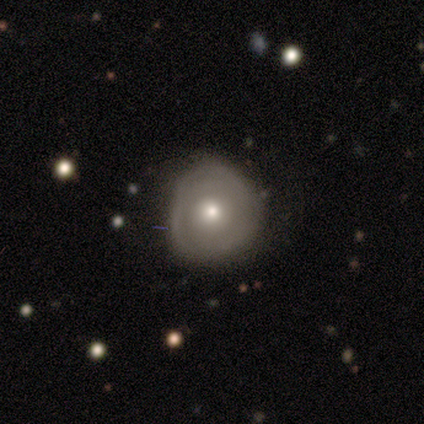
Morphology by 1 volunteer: Smooth or featured?
  - featured or disk: 100% *
  - smooth: 0%
  - star or artifact: 0%
Edge-on disk?
  - no: 100% *
  - yes: 0%
Bar?
  - no: 100% *
  - strong: 0%
  - weak: 0%
Spiral arms?
  - yes: 100% *
  - no: 0%
Spiral winding?
  - medium: 100% *
  - tight: 0%
  - loose: 0%
Spiral arm count?
  - 2: 100% *
  - 1: 0%
  - 3: 0%
  - 4: 0%
  - more than 4: 0%
  - can't tell: 0%
Bulge size?
  - moderate: 100% *
  - dominant: 0%
  - large: 0%
  - small: 0%
  - none: 0%
Merging?
  - none: 100% *
  - minor disturbance: 0%
  - major disturbance: 0%
  - merger: 0%